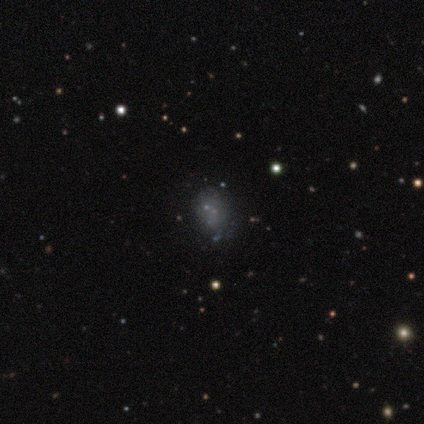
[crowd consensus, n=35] Smooth or featured: featured or disk — 46% (smooth — 40%)
Edge-on disk: no — 100%
Bar: no — 100%
Spiral arms: no — 100%
Bulge size: none — 75% (small — 19%)
Merging: none — 57% (minor disturbance — 23%)